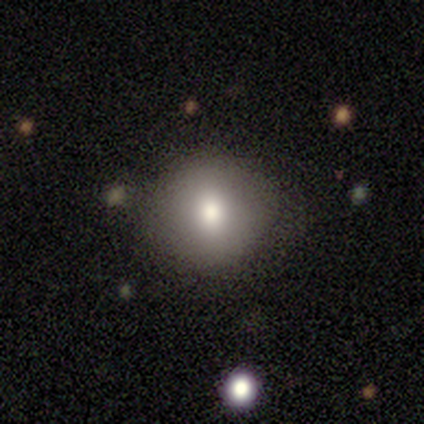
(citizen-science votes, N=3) A smooth galaxy with no disk features (100%) that is round (100%).

Vote fractions:
- Smooth or featured? smooth: 100% / featured or disk: 0% / star or artifact: 0%
- How rounded? round: 100% / in between: 0% / cigar-shaped: 0%
- Merging? none: 100% / minor disturbance: 0% / major disturbance: 0% / merger: 0%